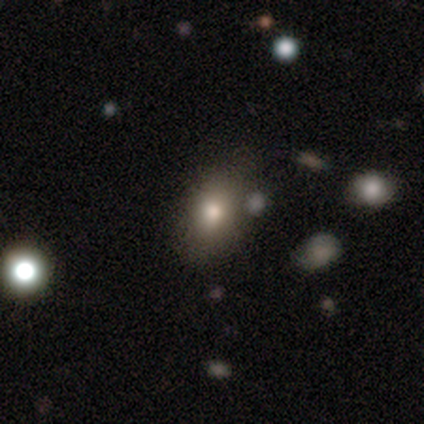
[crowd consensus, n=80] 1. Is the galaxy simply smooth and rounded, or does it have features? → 85% smooth, 8% featured or disk, 8% star or artifact.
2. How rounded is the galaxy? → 78% in between, 21% round, 1% cigar-shaped.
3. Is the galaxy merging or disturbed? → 70% none, 23% minor disturbance, 4% merger, 3% major disturbance.